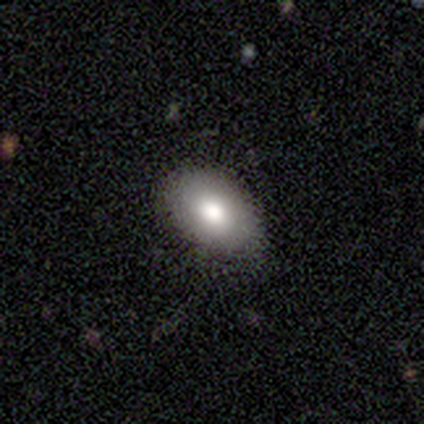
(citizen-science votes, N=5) smooth-or-featured: smooth: 60% | featured or disk: 40% | star or artifact: 0%
  how-rounded: in between: 100% | round: 0% | cigar-shaped: 0%
  merging: none: 100% | minor disturbance: 0% | major disturbance: 0% | merger: 0%